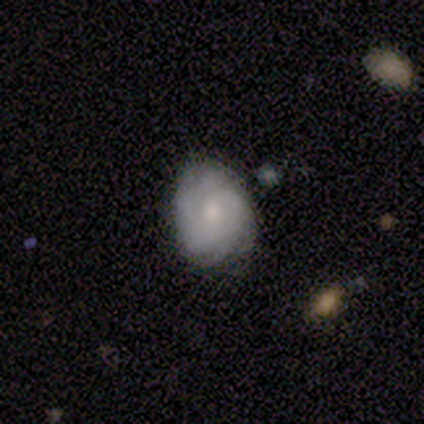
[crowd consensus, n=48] A featured or disk galaxy (73%) with no bar (71%), 4 (41%) tight (62%) spiral arms (94%) and a moderate central bulge (56%).

Vote fractions:
- Smooth or featured? featured or disk: 73% / smooth: 25% / star or artifact: 2%
- Edge-on disk? no: 97% / yes: 3%
- Bar? no: 71% / weak: 29% / strong: 0%
- Spiral arms? yes: 94% / no: 6%
- Spiral winding? tight: 62% / medium: 25% / loose: 12%
- Spiral arm count? 4: 41% / can't tell: 38% / 3: 12% / more than 4: 6% / 2: 3% / 1: 0%
- Bulge size? moderate: 56% / small: 35% / large: 9% / dominant: 0% / none: 0%
- Merging? none: 70% / minor disturbance: 26% / major disturbance: 4% / merger: 0%